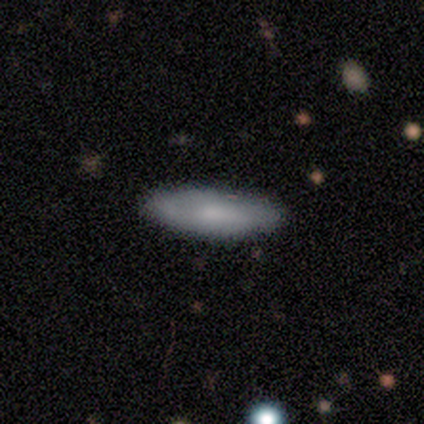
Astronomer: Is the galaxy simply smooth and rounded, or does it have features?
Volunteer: smooth — 60% (runner-up: featured or disk, 40%).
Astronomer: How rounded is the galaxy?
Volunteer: in between — 67%.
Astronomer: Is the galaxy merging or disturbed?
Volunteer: none — 80%.